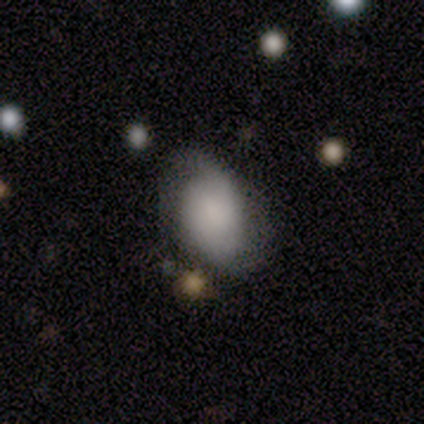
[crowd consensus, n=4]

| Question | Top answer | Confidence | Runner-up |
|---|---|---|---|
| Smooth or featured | smooth | 75% | featured or disk (25%) |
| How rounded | in between | 100% | — |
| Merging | none | 50% | minor disturbance (25%) |